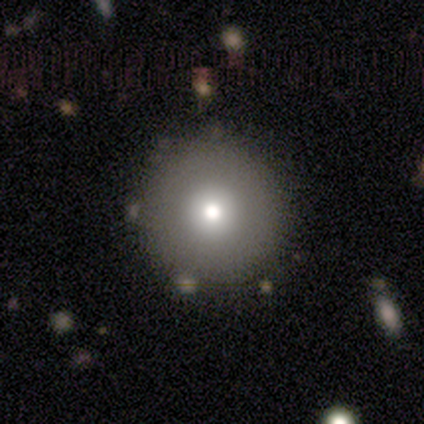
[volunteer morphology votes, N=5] smooth_or_featured: smooth (p=0.60) [alt: featured or disk p=0.20]
how_rounded: round (p=1.00)
merging: none (p=1.00)